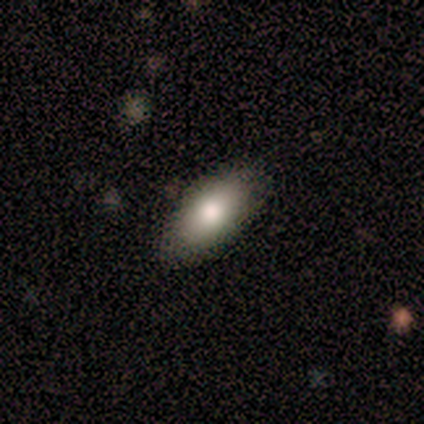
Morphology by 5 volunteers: Smooth or featured? 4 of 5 (80%) said smooth. How rounded? 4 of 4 (100%) said in between. Merging? 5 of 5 (100%) said none.